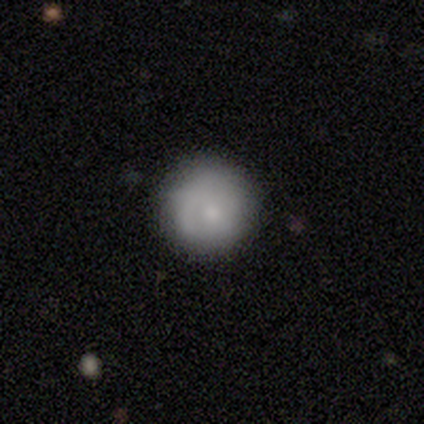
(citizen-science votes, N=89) Smooth or featured?
  - smooth: 63% *
  - featured or disk: 27%
  - star or artifact: 10%
How rounded?
  - round: 96% *
  - in between: 2%
  - cigar-shaped: 2%
Merging?
  - none: 76% *
  - minor disturbance: 20%
  - major disturbance: 2%
  - merger: 1%